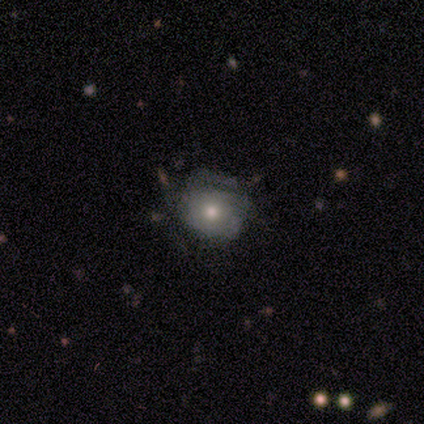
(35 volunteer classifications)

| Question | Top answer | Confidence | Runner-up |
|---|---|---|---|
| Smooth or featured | smooth | 54% | featured or disk (34%) |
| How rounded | round | 63% | in between (37%) |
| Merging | none | 52% | major disturbance (26%) |